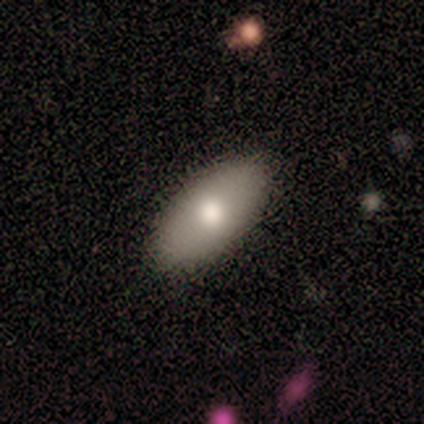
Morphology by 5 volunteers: A smooth galaxy with no disk features (80%) that is in between round and cigar-shaped (100%).

Vote fractions:
- Smooth or featured? smooth: 80% / star or artifact: 20% / featured or disk: 0%
- How rounded? in between: 100% / round: 0% / cigar-shaped: 0%
- Merging? none: 75% / minor disturbance: 25% / major disturbance: 0% / merger: 0%